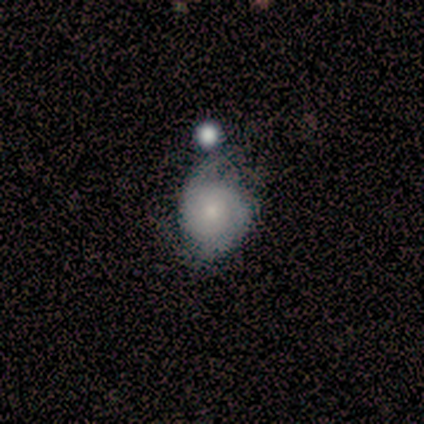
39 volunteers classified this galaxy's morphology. Overall: featured or disk (67%; smooth 31%). Edge-on disk: no (92%). Bar: no (75%). Spiral arms: yes (88%). Spiral arm count: 2 (67%). Spiral winding: tight (67%). Bulge size: small (62%; moderate 29%). Merging: minor disturbance (42%; none 24%).